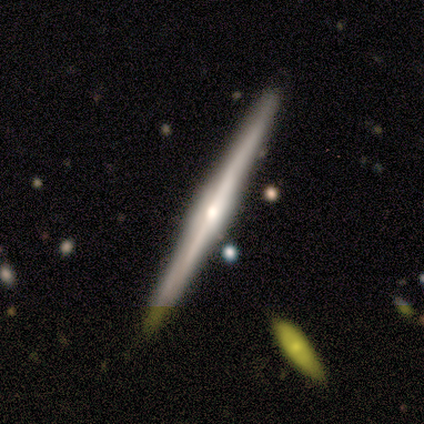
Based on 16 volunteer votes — Smooth or featured: featured or disk — 75% (smooth — 12%)
Edge-on disk: yes — 100%
Edge-on bulge: rounded — 75% (boxy — 17%)
Merging: none — 100%